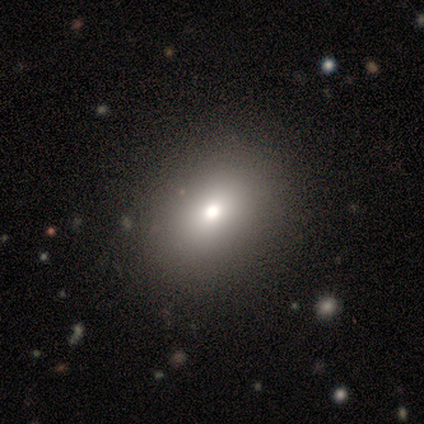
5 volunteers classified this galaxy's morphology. Smooth or featured?
  - smooth: 40% * (tied)
  - star or artifact: 40% * (tied)
  - featured or disk: 20%
How rounded?
  - in between: 100% *
  - round: 0%
  - cigar-shaped: 0%
Merging?
  - none: 67% *
  - minor disturbance: 33%
  - major disturbance: 0%
  - merger: 0%